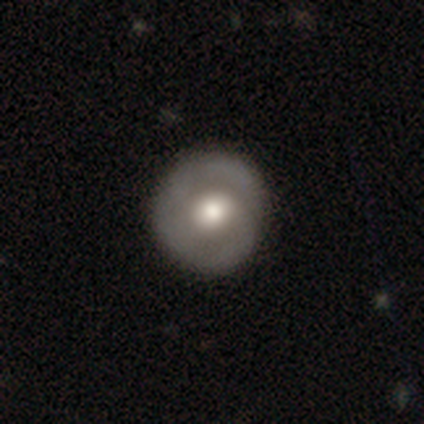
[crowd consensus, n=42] Overall: featured or disk (67%; smooth 33%). Edge-on disk: no (96%). Bar: no (78%). Spiral arms: yes (67%; no 33%). Spiral arm count: 2 (61%). Spiral winding: tight (61%; loose 22%). Bulge size: moderate (63%). Merging: none (88%).